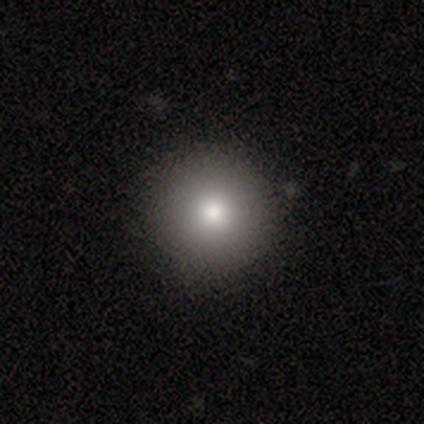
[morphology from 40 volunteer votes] This is clearly a smooth galaxy (90%). How rounded: clearly round (100%). Merging: likely none (62%).